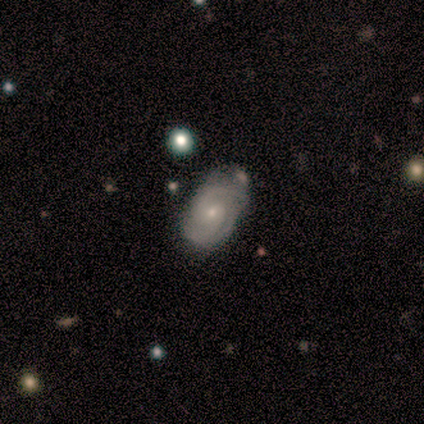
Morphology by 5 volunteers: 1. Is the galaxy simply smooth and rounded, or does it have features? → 100% featured or disk, 0% smooth, 0% star or artifact.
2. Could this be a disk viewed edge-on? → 100% no, 0% yes.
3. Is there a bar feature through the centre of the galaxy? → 60% no, 40% weak, 0% strong.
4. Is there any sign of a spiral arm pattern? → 100% yes, 0% no.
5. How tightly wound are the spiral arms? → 40% tight (tied), 40% medium (tied), 20% loose.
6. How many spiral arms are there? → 80% 2, 20% more than 4, 0% 1, 0% 3, 0% 4, 0% can't tell.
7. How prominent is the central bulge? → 80% small, 20% moderate, 0% dominant, 0% large, 0% none.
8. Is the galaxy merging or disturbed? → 80% none, 20% minor disturbance, 0% major disturbance, 0% merger.